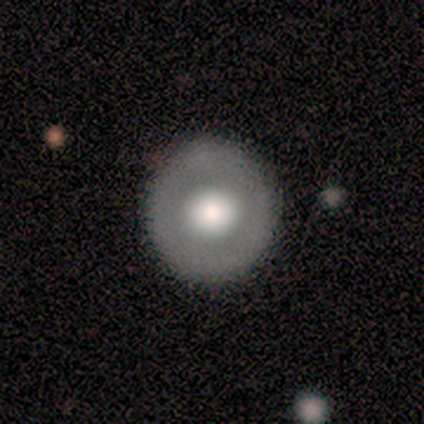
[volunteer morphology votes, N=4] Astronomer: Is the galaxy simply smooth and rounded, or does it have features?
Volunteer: smooth — 75%.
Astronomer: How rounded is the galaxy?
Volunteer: round — 100%.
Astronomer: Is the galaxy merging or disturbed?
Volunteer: none — 100%.